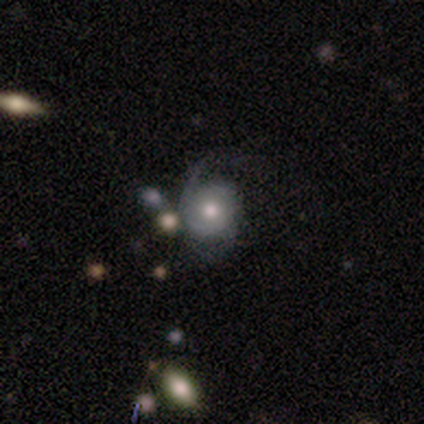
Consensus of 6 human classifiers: Smooth or featured? 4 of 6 (67%) said featured or disk. Edge-on disk? 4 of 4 (100%) said no. Bar? 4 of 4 (100%) said no. Spiral arms? 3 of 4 (75%) said yes. Spiral winding? 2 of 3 (67%) said loose. Spiral arm count? 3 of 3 (100%) said 2. Bulge size? 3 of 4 (75%) said moderate. Merging? 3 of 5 (60%) said none.